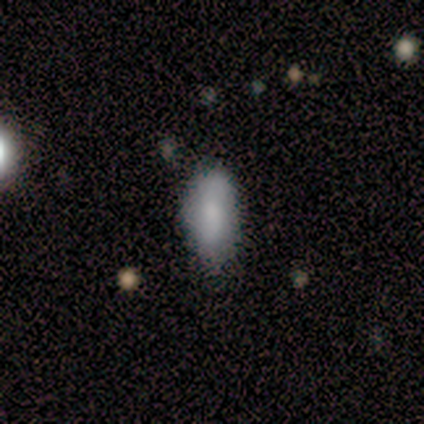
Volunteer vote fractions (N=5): Volunteers were most divided on "merging": minor disturbance: 60%, none: 40%, major disturbance: 0%, merger: 0%. More confident: how rounded — in between (100%); smooth or featured — smooth (80%).